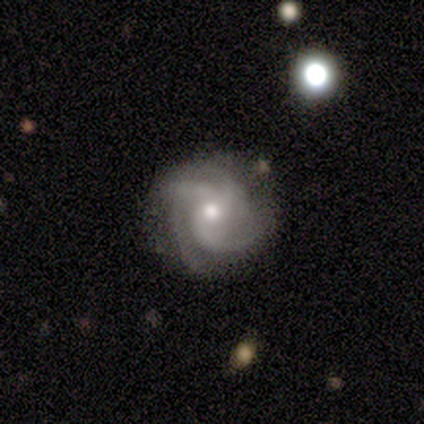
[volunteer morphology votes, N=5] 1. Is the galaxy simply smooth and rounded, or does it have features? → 60% featured or disk, 40% smooth, 0% star or artifact.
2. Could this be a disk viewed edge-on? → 100% no, 0% yes.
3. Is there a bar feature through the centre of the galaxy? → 67% no, 33% weak, 0% strong.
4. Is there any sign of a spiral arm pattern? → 100% yes, 0% no.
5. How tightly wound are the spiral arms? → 67% medium, 33% tight, 0% loose.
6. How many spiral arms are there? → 67% 4, 33% can't tell, 0% 1, 0% 2, 0% 3, 0% more than 4.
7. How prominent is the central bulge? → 33% moderate (tied), 33% small (tied), 33% none (tied), 0% dominant, 0% large.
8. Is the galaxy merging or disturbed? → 80% none, 20% major disturbance, 0% minor disturbance, 0% merger.